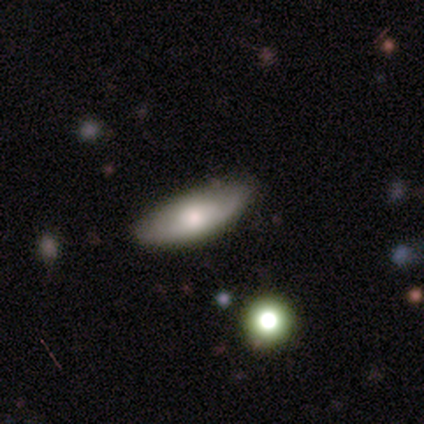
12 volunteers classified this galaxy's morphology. This appears to be a smooth galaxy with no disk features (83%) that is in between round and cigar-shaped (70%). Merging: minor disturbance (55%).